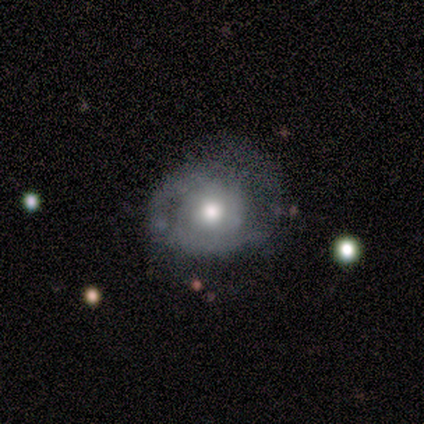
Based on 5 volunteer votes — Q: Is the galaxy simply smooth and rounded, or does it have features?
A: featured or disk — 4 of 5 (80%).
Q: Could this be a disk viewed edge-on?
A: no — 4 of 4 (100%).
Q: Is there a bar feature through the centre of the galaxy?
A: no — 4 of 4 (100%).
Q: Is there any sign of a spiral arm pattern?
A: yes — 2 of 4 (50%, tied with no).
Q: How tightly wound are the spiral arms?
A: tight — 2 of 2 (100%).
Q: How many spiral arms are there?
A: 1 — 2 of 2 (100%).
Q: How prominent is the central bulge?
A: moderate — 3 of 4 (75%).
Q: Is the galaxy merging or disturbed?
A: none — 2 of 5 (40%, tied with major disturbance).